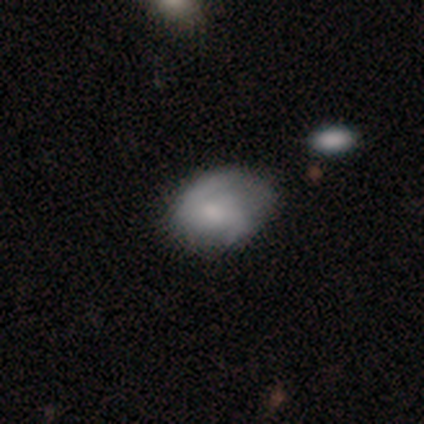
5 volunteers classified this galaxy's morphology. type=smooth (60%); roundness=in between (67%); merging=none (60%).